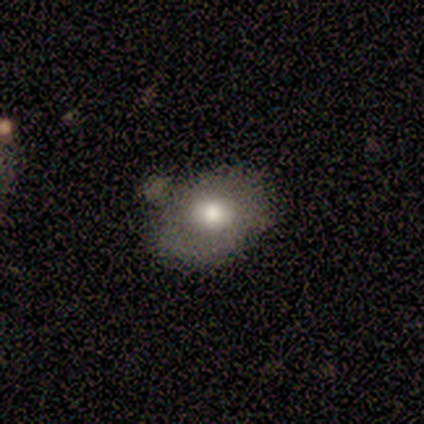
A smooth galaxy with no disk features (60%) that is in between round and cigar-shaped (67%). Merging: minor disturbance (60%).